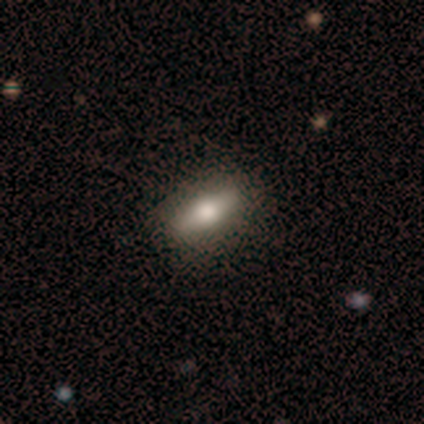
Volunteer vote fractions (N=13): Smooth or featured? 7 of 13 (54%) said smooth. How rounded? 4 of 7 (57%) said in between. Merging? 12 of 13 (92%) said none.